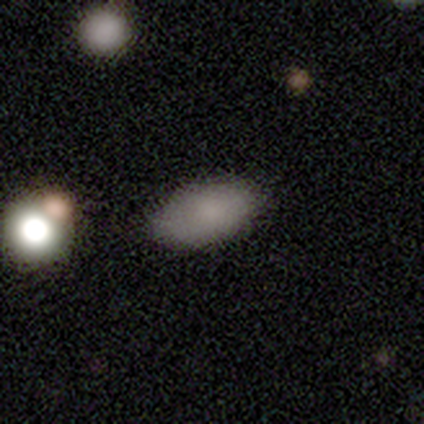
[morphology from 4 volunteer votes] A smooth galaxy with no disk features (75%) that is in between round and cigar-shaped (100%). Merging: none (50%, tied with minor disturbance).